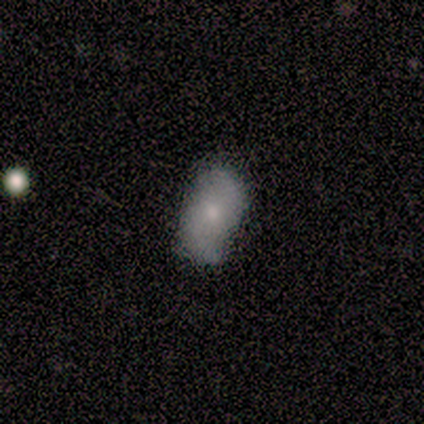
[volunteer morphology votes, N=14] smooth-or-featured: smooth: 57% | featured or disk: 43% | star or artifact: 0%
  how-rounded: in between: 100% | round: 0% | cigar-shaped: 0%
  merging: none: 57% | minor disturbance: 36% | major disturbance: 7% | merger: 0%